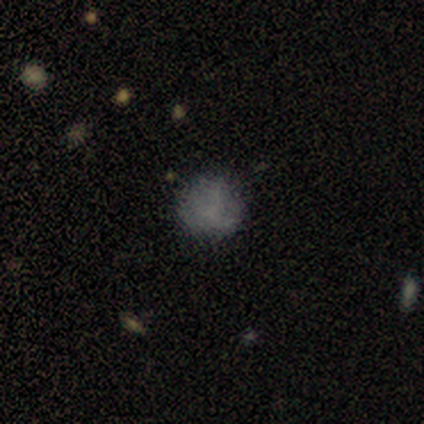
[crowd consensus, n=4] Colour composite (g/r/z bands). It shows a smooth galaxy with no disk features (75%) that is round (100%). Merging: none (50%, tied with minor disturbance).